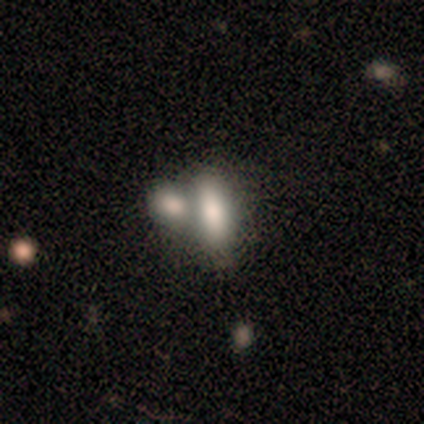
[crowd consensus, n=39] Q: Smooth or featured?
A: smooth (74%); runner-up: featured or disk (15%)
Q: How rounded?
A: in between (66%); runner-up: cigar-shaped (31%)
Q: Merging?
A: merger (63%); runner-up: none (23%)